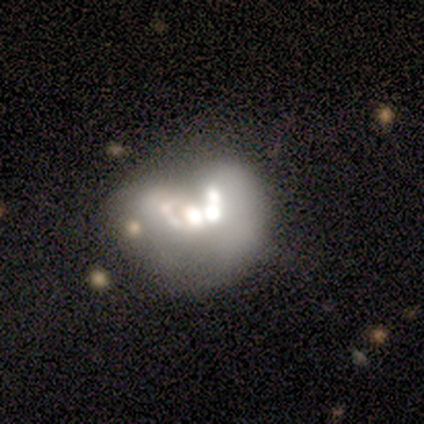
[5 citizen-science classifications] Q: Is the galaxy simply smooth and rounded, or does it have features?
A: smooth — 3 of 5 (60%).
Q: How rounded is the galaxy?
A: round — 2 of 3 (67%).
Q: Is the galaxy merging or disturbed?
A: merger — 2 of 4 (50%).